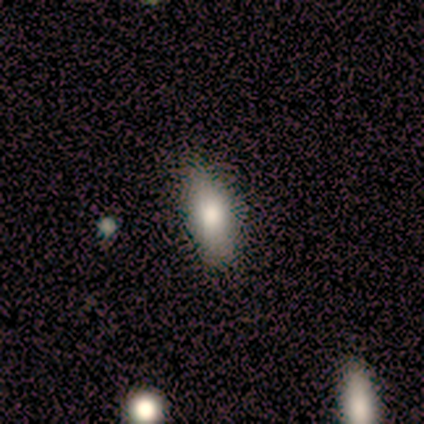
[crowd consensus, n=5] Overall: smooth (80%). How rounded: in between (75%). Merging: minor disturbance (60%; none 20%).